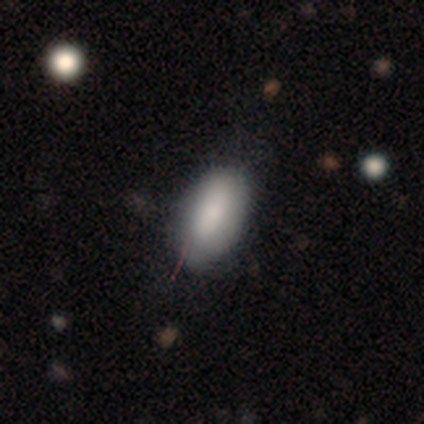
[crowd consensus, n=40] Overall: smooth (88%). How rounded: in between (94%). Merging: none (67%).